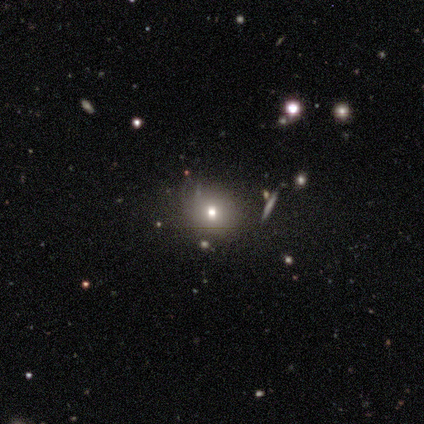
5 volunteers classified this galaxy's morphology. smooth-or-featured: featured or disk: 60% | smooth: 20% | star or artifact: 20%
  disk-edge-on: no: 100% | yes: 0%
    bar: no: 100% | strong: 0% | weak: 0%
    has-spiral-arms: no: 100% | yes: 0%
    bulge-size: moderate: 67% | small: 33% | dominant: 0% | large: 0% | none: 0%
  merging: none: 75% | minor disturbance: 25% | major disturbance: 0% | merger: 0%